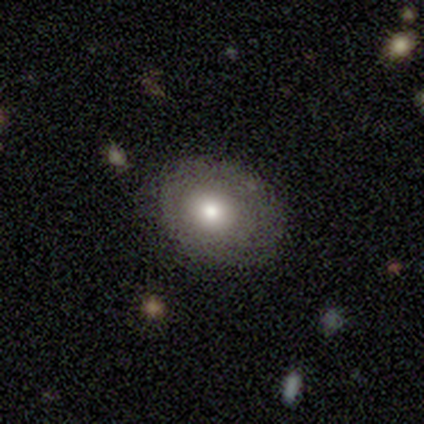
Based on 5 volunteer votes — This is likely a smooth galaxy (60%). How rounded: clearly round (100%). Merging: clearly none (100%).